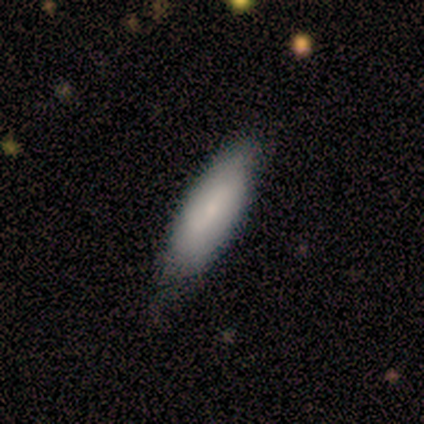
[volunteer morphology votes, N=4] type=smooth (50%, tied with featured or disk); roundness=in between (100%); merging=none (75%).